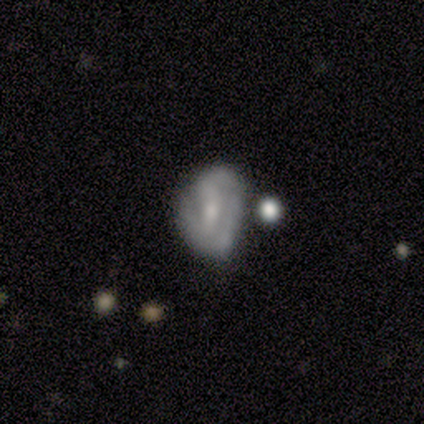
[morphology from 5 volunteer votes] smooth_or_featured: featured or disk (p=0.80) [alt: smooth p=0.20]
disk_edge_on: no (p=1.00)
bar: weak (p=0.50) [tied with: no p=0.50]
has_spiral_arms: yes (p=0.50) [tied with: no p=0.50]
spiral_winding: medium (p=1.00)
spiral_arm_count: 3 (p=1.00)
bulge_size: small (p=0.75) [alt: none p=0.25]
merging: none (p=0.40) [tied with: minor disturbance p=0.40]